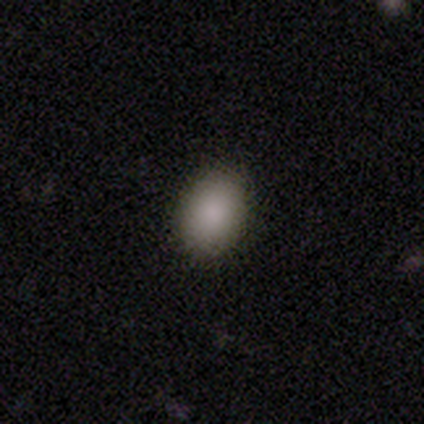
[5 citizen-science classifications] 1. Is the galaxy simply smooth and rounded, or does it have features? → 80% smooth, 20% star or artifact, 0% featured or disk.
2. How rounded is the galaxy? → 100% in between, 0% round, 0% cigar-shaped.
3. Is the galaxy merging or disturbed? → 75% none, 25% minor disturbance, 0% major disturbance, 0% merger.